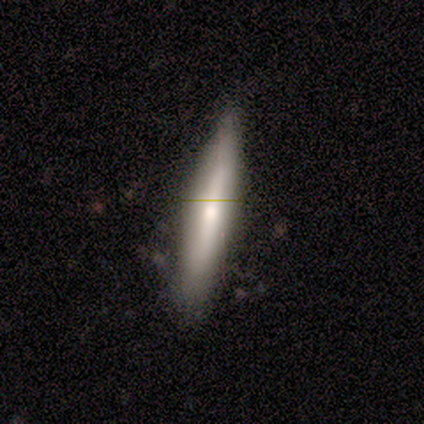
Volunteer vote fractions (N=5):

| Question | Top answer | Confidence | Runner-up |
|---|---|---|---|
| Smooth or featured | smooth | 40% | tied: featured or disk (40%) |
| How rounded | cigar-shaped | 100% | — |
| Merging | minor disturbance | 75% | none (25%) |